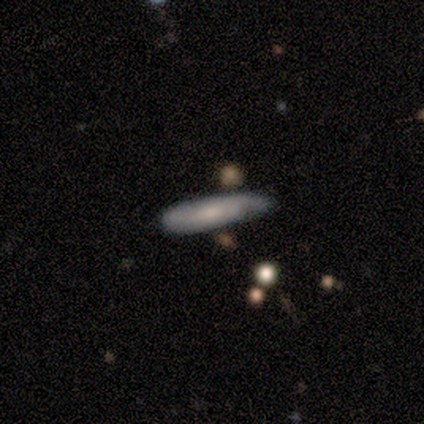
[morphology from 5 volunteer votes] smooth 40% (tied), featured or disk 40% (tied), star or artifact 20%. Down the decision tree: how rounded — cigar-shaped (100%); merging — minor disturbance (75%).